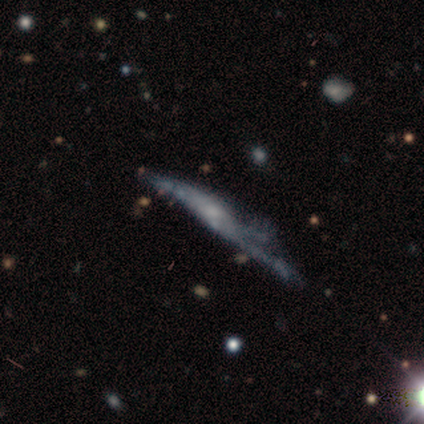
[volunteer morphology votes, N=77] Volunteers were most divided on "edge-on disk": yes: 57%, no: 43%. More confident: smooth or featured — featured or disk (70%); edge-on bulge — rounded (55%); merging — major disturbance (54%).